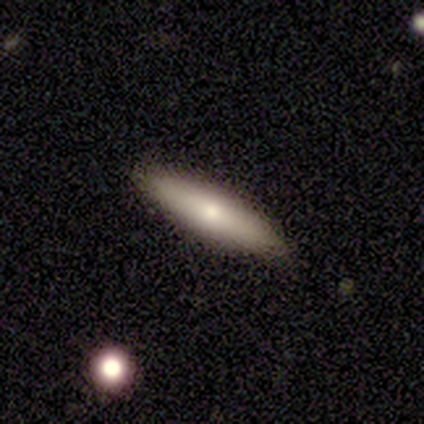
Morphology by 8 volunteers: This appears to be a smooth galaxy with no disk features (75%) that is cigar-shaped (83%). Merging: none (86%).